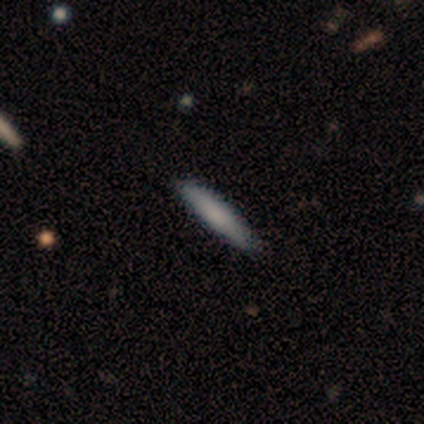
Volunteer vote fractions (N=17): A smooth galaxy with no disk features (65%) that is cigar-shaped (82%). Merging: none (94%).